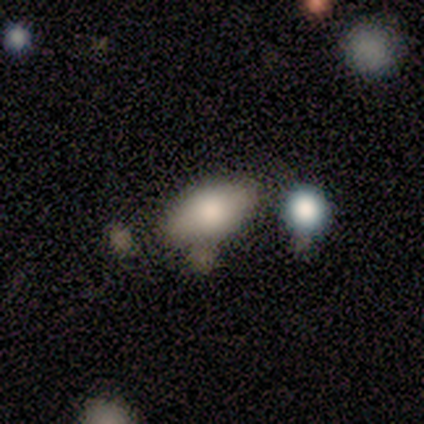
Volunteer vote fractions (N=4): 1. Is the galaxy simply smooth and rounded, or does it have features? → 75% smooth, 25% star or artifact, 0% featured or disk.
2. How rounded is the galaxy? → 100% in between, 0% round, 0% cigar-shaped.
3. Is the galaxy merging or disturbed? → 67% none, 33% merger, 0% minor disturbance, 0% major disturbance.